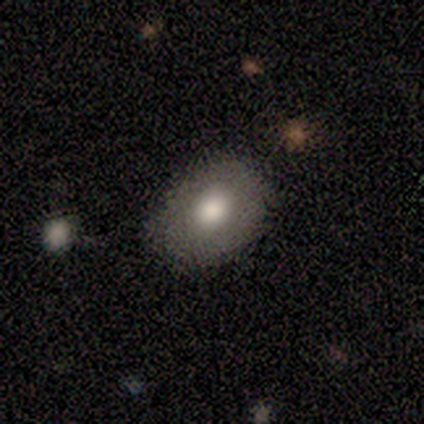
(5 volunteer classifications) smooth 80%, featured or disk 20%, star or artifact 0%. Down the decision tree: how rounded — round (75%); merging — none (40%, tied with minor disturbance).